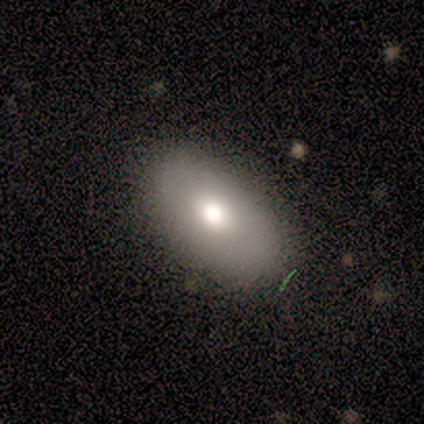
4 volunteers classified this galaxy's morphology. Overall: smooth (50%, tied with featured or disk). How rounded: in between (100%). Merging: none (100%).